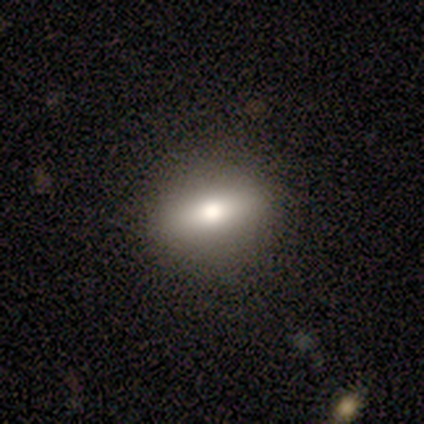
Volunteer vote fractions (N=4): This appears to be a smooth galaxy with no disk features (50%) that is round (50%, tied with in between). Merging: none (100%).